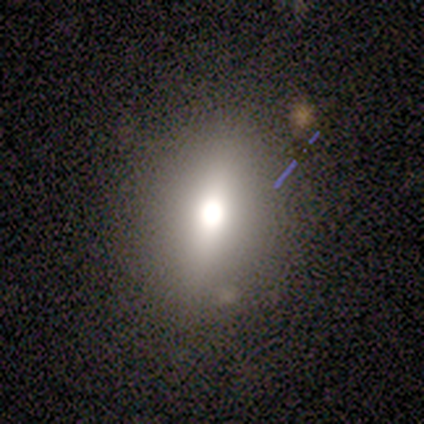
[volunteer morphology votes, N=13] This appears to be a smooth galaxy with no disk features (69%) that is in between round and cigar-shaped (56%). Merging: none (90%).